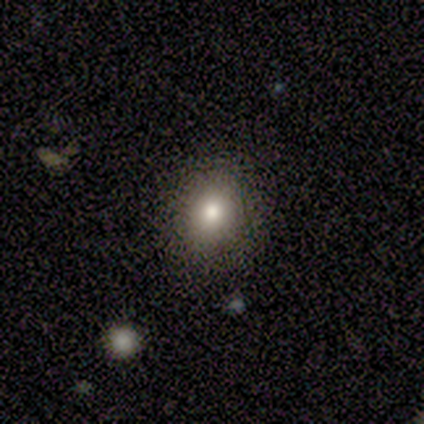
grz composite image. It shows a smooth galaxy with no disk features (40%, tied with featured or disk) that is round (50%, tied with in between). Merging: none (100%).